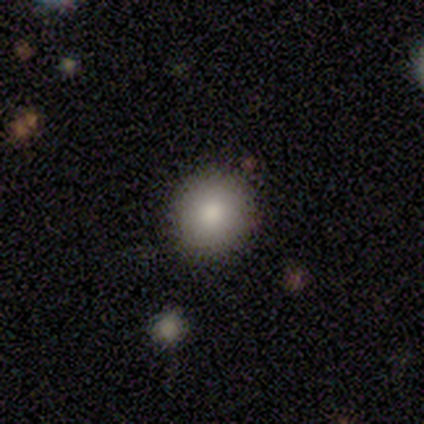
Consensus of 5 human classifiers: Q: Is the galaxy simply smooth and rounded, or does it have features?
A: smooth — 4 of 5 (80%).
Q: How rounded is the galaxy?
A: round — 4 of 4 (100%).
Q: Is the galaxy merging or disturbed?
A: none — 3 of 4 (75%).